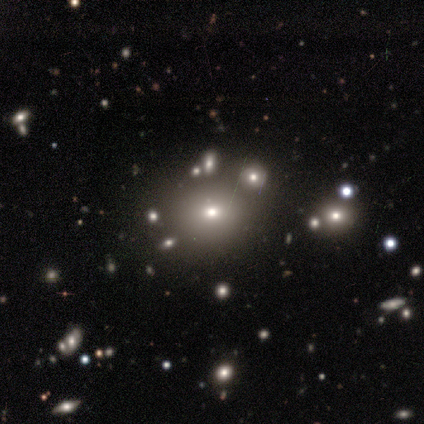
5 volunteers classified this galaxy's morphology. A smooth galaxy with no disk features (60%) that is round (67%). Merging: none (33%, tied with minor disturbance and merger).